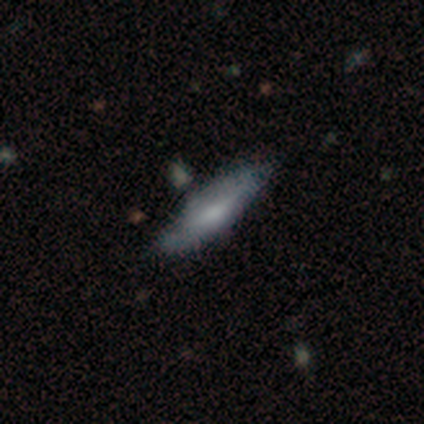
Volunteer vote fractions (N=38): Smooth or featured?
  - smooth: 47% *
  - featured or disk: 45%
  - star or artifact: 8%
How rounded?
  - cigar-shaped: 72% *
  - in between: 28%
  - round: 0%
Merging?
  - none: 83% *
  - minor disturbance: 14%
  - major disturbance: 3%
  - merger: 0%